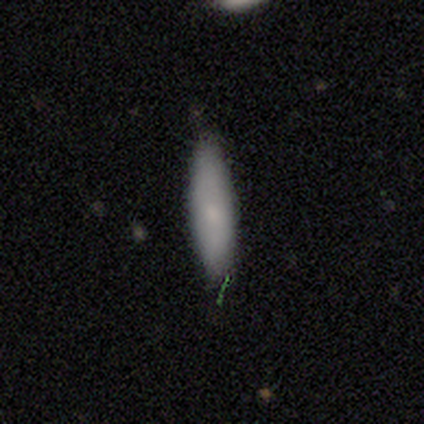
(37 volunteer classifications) smooth_or_featured: smooth (p=0.73) [alt: featured or disk p=0.16]
how_rounded: cigar-shaped (p=0.67) [alt: in between p=0.33]
merging: none (p=0.85) [alt: minor disturbance p=0.12]